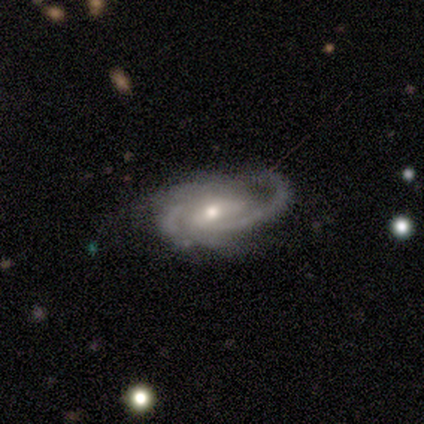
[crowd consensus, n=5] Q: Smooth or featured?
A: featured or disk (80%); runner-up: star or artifact (20%)
Q: Edge-on disk?
A: no (100%)
Q: Bar?
A: no (75%); runner-up: weak (25%)
Q: Spiral arms?
A: yes (100%)
Q: Spiral winding?
A: medium (50%); runner-up: tight (25%)
Q: Spiral arm count?
A: 2 (50%); runner-up: 3 (25%)
Q: Bulge size?
A: moderate (75%); runner-up: small (25%)
Q: Merging?
A: minor disturbance (50%); runner-up: none (25%)